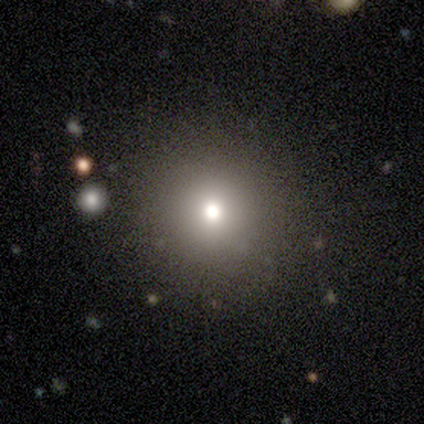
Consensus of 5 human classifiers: Volunteers were most divided on "smooth or featured" (2-way tie): smooth: 40%, star or artifact: 40%, featured or disk: 20%. More confident: how rounded — round (100%); merging — none (100%).